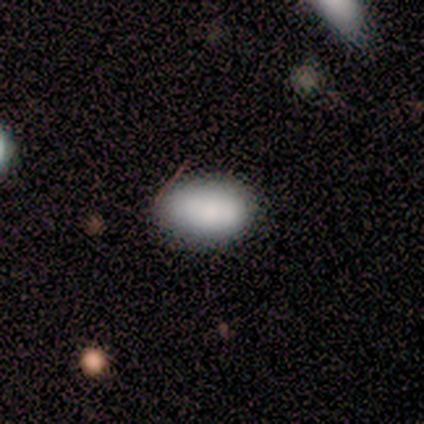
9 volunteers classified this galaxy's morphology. A smooth galaxy with no disk features (100%) that is in between round and cigar-shaped (100%).

Vote fractions:
- Smooth or featured? smooth: 100% / featured or disk: 0% / star or artifact: 0%
- How rounded? in between: 100% / round: 0% / cigar-shaped: 0%
- Merging? none: 78% / minor disturbance: 22% / major disturbance: 0% / merger: 0%